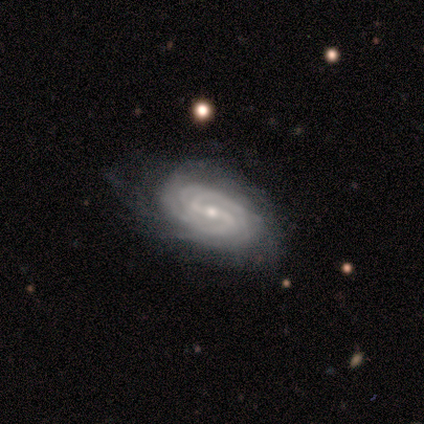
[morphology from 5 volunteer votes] type=featured or disk (100%); edge-on=no (100%); bar=strong (40%, tied with no); spiral arms=yes (100%); winding=tight (60%); arm count=2 (60%); bulge=small (80%); merging=minor disturbance (60%).